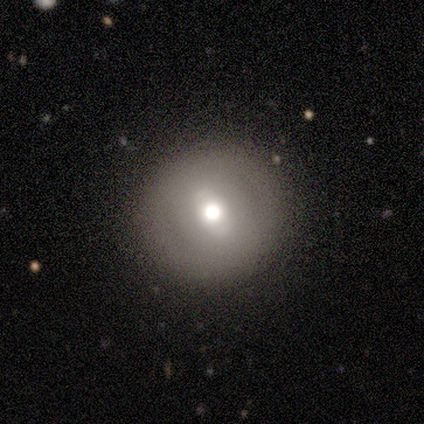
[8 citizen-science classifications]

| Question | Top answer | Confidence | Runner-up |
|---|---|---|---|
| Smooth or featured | smooth | 62% | featured or disk (25%) |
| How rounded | round | 100% | — |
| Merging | none | 100% | — |